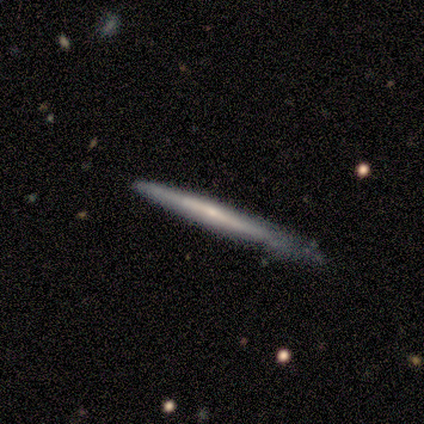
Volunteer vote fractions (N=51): Smooth or featured? featured or disk (65%)
Edge-on disk? yes (100%)
Edge-on bulge? none (67%)
Merging? none (60%)